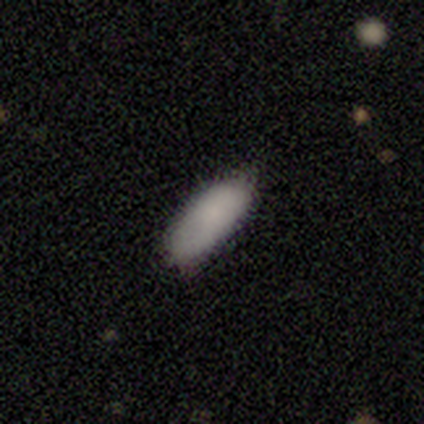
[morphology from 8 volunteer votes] Q: Smooth or featured?
A: smooth (100%)
Q: How rounded?
A: in between (100%)
Q: Merging?
A: none (75%); runner-up: minor disturbance (25%)